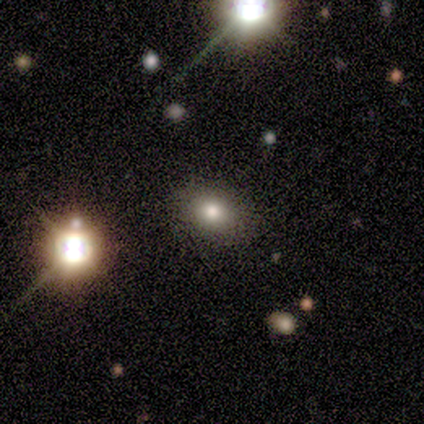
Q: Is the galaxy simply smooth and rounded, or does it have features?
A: smooth — 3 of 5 (60%).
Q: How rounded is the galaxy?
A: in between — 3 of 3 (100%).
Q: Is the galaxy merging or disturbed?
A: none — 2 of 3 (67%).